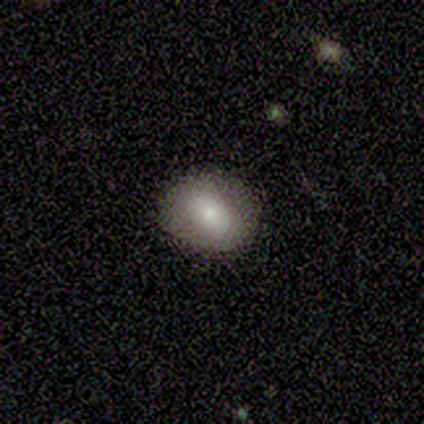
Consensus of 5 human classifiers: A smooth galaxy with no disk features (100%) that is in between round and cigar-shaped (60%). Merging: none (80%).